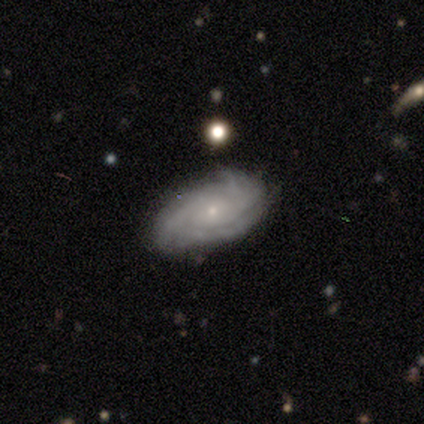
Morphology: type=featured or disk (100%); edge-on=no (100%); bar=weak (80%); spiral arms=yes (100%); winding=tight (80%); arm count=3 (40%, tied with can't tell); bulge=small (100%); merging=none (100%).